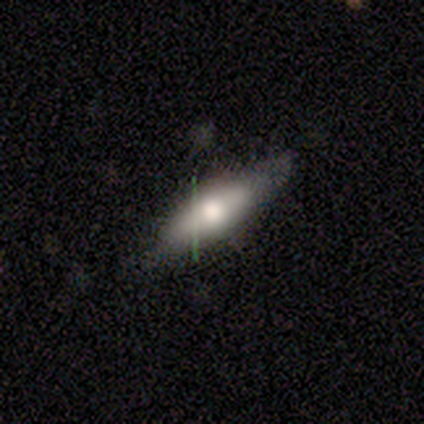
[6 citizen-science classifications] Volunteers were most divided on "smooth or featured" (2-way tie): smooth: 50%, featured or disk: 50%, star or artifact: 0%. More confident: merging — none (100%); how rounded — cigar-shaped (67%).